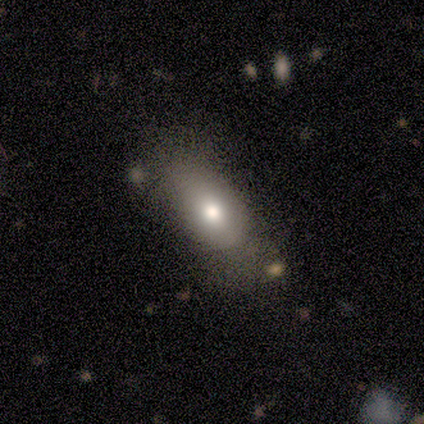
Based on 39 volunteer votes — Q: Smooth or featured?
A: smooth (72%); runner-up: featured or disk (15%)
Q: How rounded?
A: in between (86%); runner-up: round (7%)
Q: Merging?
A: none (32%); runner-up: minor disturbance (18%)